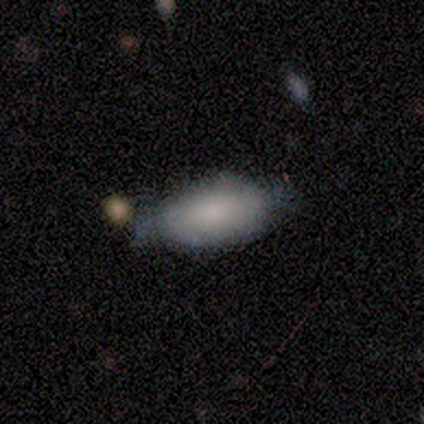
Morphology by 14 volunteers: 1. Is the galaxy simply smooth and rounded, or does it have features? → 64% smooth, 29% featured or disk, 7% star or artifact.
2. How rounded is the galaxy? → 100% in between, 0% round, 0% cigar-shaped.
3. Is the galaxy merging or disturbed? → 54% minor disturbance, 46% none, 0% major disturbance, 0% merger.